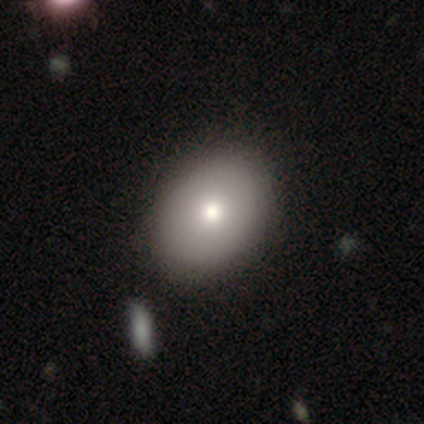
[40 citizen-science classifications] A smooth galaxy with no disk features (88%) that is in between round and cigar-shaped (66%). Merging: none (64%).